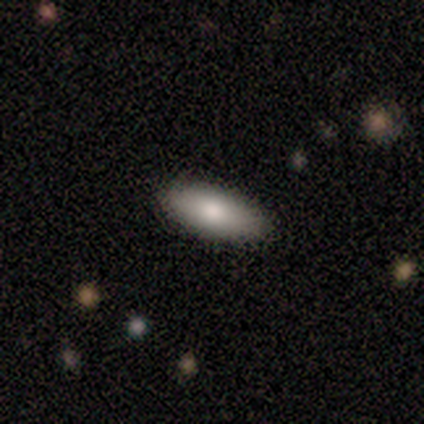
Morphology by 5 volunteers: Smooth or featured: smooth — 100%
How rounded: in between — 80% (cigar-shaped — 20%)
Merging: none — 60% (minor disturbance — 40%)